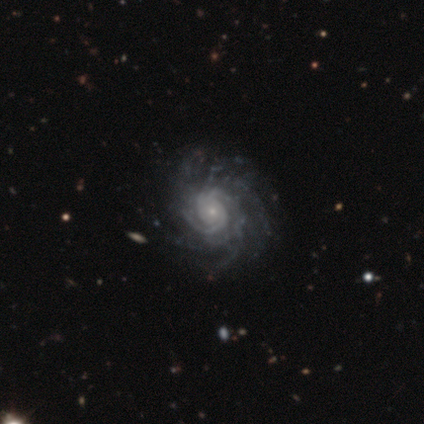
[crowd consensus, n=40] Smooth or featured: featured or disk — 98% (star or artifact — 2%)
Edge-on disk: no — 100%
Bar: no — 90% (weak — 10%)
Spiral arms: yes — 100%
Spiral winding: tight — 69% (medium — 18%)
Spiral arm count: more than 4 — 41% (can't tell — 26%)
Bulge size: small — 85% (moderate — 15%)
Merging: none — 74% (minor disturbance — 3%)